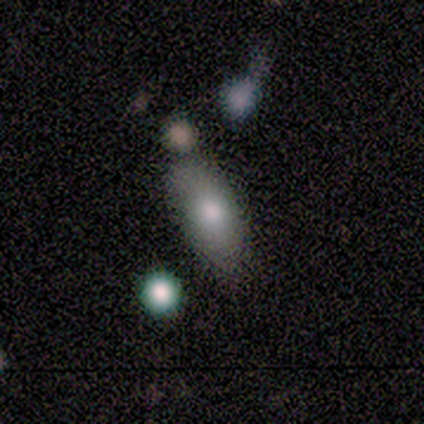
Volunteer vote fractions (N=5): Volunteers were most divided on "smooth or featured": smooth: 60%, featured or disk: 40%, star or artifact: 0%. More confident: how rounded — in between (100%); merging — minor disturbance (60%).